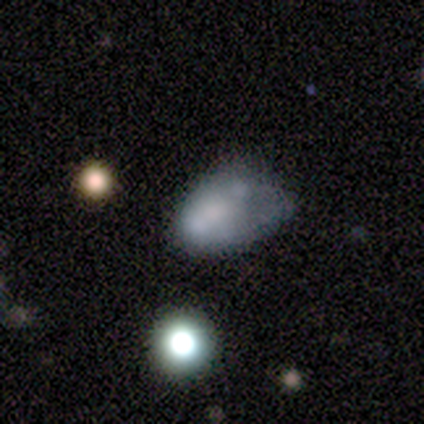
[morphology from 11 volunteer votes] Smooth or featured? 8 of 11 (73%) said smooth. How rounded? 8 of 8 (100%) said in between. Merging? 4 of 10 (40%, tied with minor disturbance) said none.